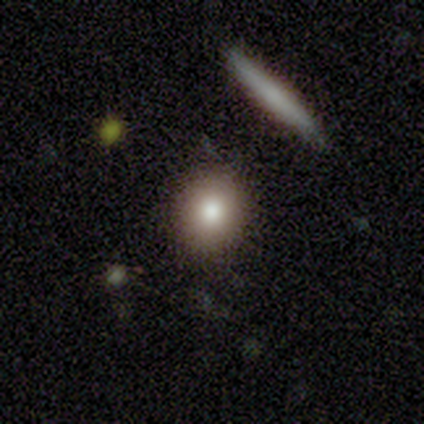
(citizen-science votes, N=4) Morphology: type=smooth (100%); roundness=round (75%); merging=none (100%).